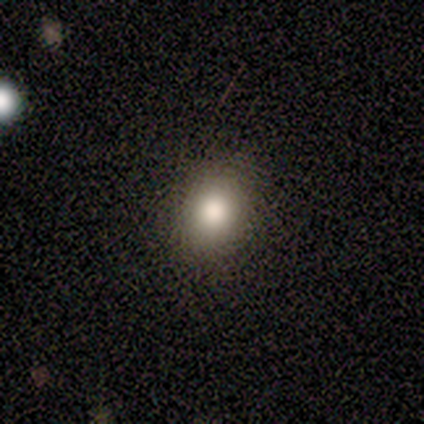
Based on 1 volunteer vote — This appears to be a smooth galaxy with no disk features (100%) that is round (100%). Merging: none (100%).